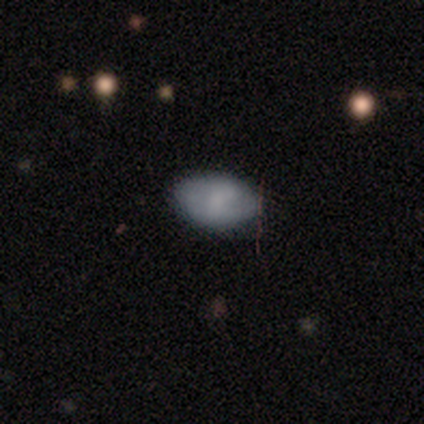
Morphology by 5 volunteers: Smooth or featured? smooth (80%)
How rounded? in between (100%)
Merging? none (100%)